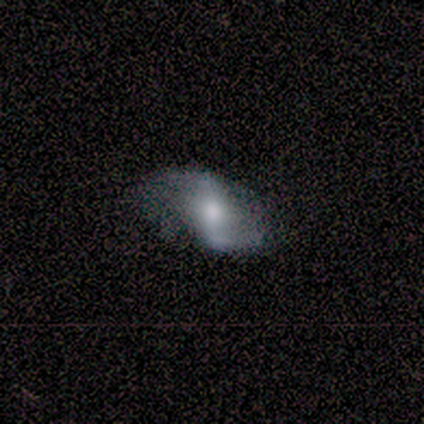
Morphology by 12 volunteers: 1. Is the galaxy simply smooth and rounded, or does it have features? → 83% featured or disk, 17% smooth, 0% star or artifact.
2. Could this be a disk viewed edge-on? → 100% no, 0% yes.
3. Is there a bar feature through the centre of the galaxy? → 40% weak (tied), 40% no (tied), 20% strong.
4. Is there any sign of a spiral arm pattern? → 80% yes, 20% no.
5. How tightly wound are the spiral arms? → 75% loose, 12% tight, 12% medium.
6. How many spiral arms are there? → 62% 2, 25% can't tell, 12% 1, 0% 3, 0% 4, 0% more than 4.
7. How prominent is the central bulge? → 70% moderate, 20% small, 10% large, 0% dominant, 0% none.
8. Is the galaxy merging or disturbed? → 67% none, 17% minor disturbance, 17% major disturbance, 0% merger.